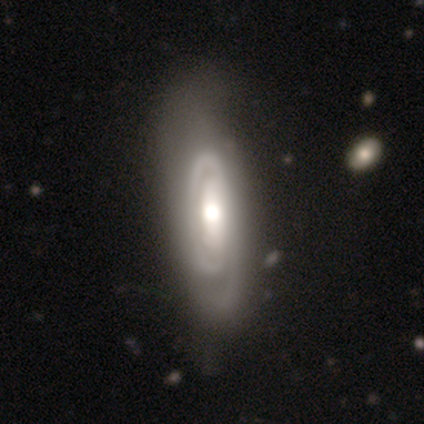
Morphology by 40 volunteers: Overall: featured or disk (90%). Edge-on disk: no (83%). Bar: no (47%; strong 37%). Spiral arms: yes (73%). Spiral arm count: can't tell (45%; 2 23%). Spiral winding: tight (59%; medium 36%). Bulge size: moderate (63%; large 30%). Merging: none (38%; minor disturbance 10%).